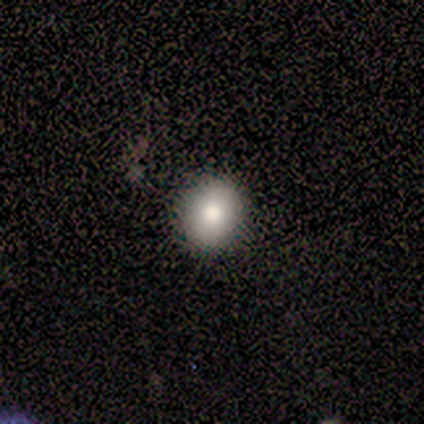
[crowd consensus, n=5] Smooth or featured? 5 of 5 (100%) said smooth. How rounded? 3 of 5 (60%) said in between. Merging? 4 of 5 (80%) said none.